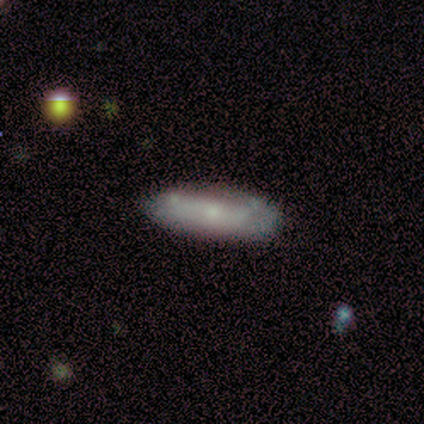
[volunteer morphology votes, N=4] This is possibly a smooth galaxy (50%, tied with featured or disk). How rounded: clearly in between (100%). Merging: likely none (75%).